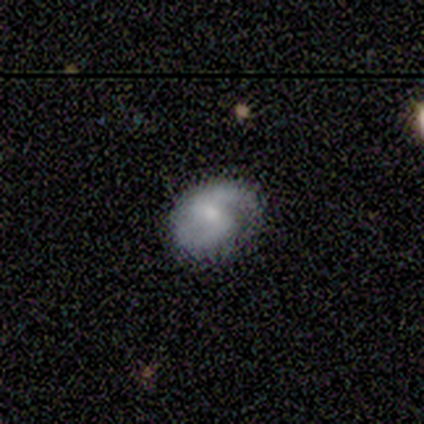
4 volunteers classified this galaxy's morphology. Overall: featured or disk (75%). Edge-on disk: no (100%). Bar: weak (100%). Spiral arms: yes (67%; no 33%). Spiral arm count: 1 (50%, tied with 2). Spiral winding: tight (50%, tied with medium). Bulge size: small (67%; moderate 33%). Merging: none (75%).